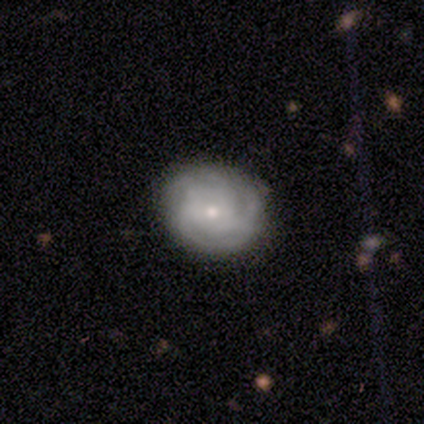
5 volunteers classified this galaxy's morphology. Smooth or featured?
  - featured or disk: 100% *
  - smooth: 0%
  - star or artifact: 0%
Edge-on disk?
  - no: 80% *
  - yes: 20%
Bar?
  - no: 100% *
  - strong: 0%
  - weak: 0%
Spiral arms?
  - yes: 100% *
  - no: 0%
Spiral winding?
  - tight: 75% *
  - medium: 25%
  - loose: 0%
Spiral arm count?
  - 2: 50% *
  - 4: 25%
  - more than 4: 25%
  - 1: 0%
  - 3: 0%
  - can't tell: 0%
Bulge size?
  - small: 100% *
  - dominant: 0%
  - large: 0%
  - moderate: 0%
  - none: 0%
Merging?
  - none: 60% *
  - minor disturbance: 40%
  - major disturbance: 0%
  - merger: 0%